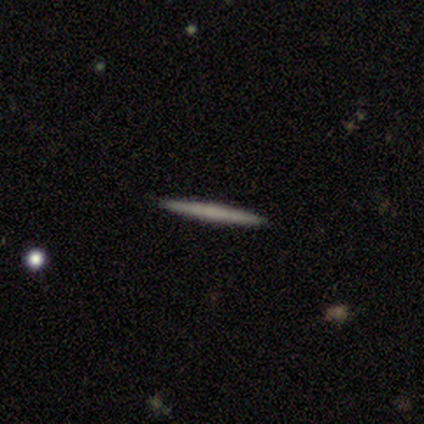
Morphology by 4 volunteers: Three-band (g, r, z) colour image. It shows a smooth galaxy with no disk features (50%, tied with featured or disk) that is cigar-shaped (100%). Merging: none (100%).